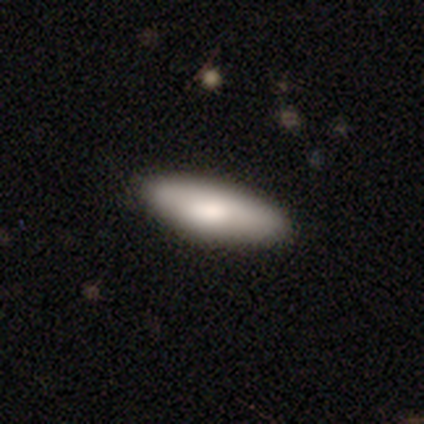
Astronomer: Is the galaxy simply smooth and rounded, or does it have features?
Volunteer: smooth — 80%.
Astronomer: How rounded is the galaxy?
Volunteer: in between — 75%.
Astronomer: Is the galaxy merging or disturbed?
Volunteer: none — 100%.